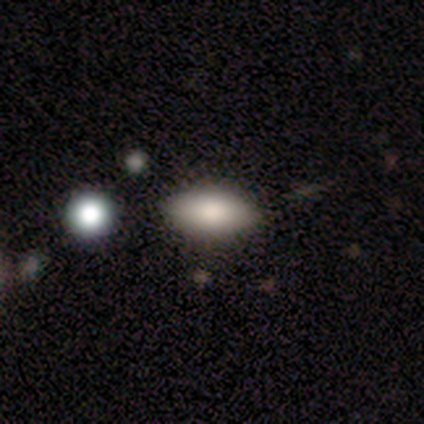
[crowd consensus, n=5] A smooth galaxy with no disk features (100%) that is in between round and cigar-shaped (100%).

Vote fractions:
- Smooth or featured? smooth: 100% / featured or disk: 0% / star or artifact: 0%
- How rounded? in between: 100% / round: 0% / cigar-shaped: 0%
- Merging? none: 60% / minor disturbance: 40% / major disturbance: 0% / merger: 0%